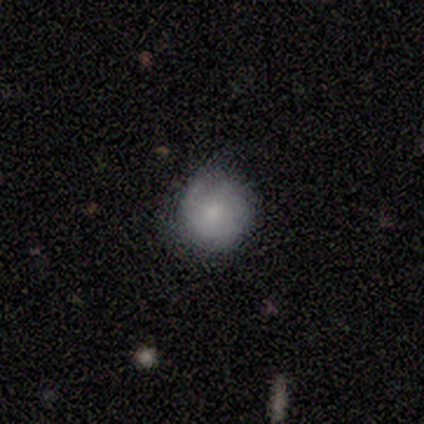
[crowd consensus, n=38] This is likely a smooth galaxy (66%). How rounded: clearly round (96%). Merging: possibly none (50%).